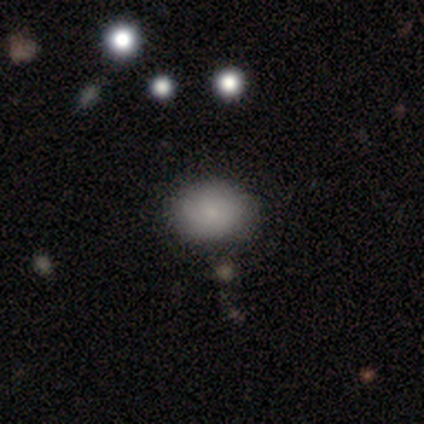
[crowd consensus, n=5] A smooth galaxy with no disk features (60%) that is in between round and cigar-shaped (100%).

Vote fractions:
- Smooth or featured? smooth: 60% / featured or disk: 20% / star or artifact: 20%
- How rounded? in between: 100% / round: 0% / cigar-shaped: 0%
- Merging? none: 75% / minor disturbance: 25% / major disturbance: 0% / merger: 0%